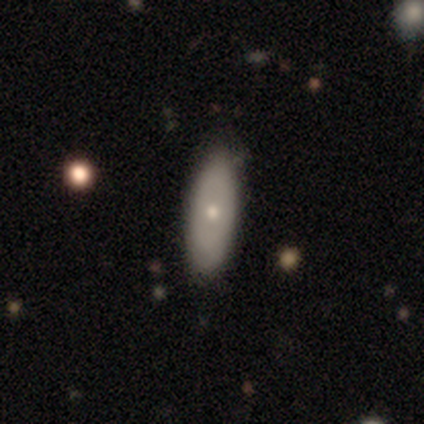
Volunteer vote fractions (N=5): This appears to be a smooth galaxy with no disk features (60%) that is in between round and cigar-shaped (100%). Merging: none (80%).